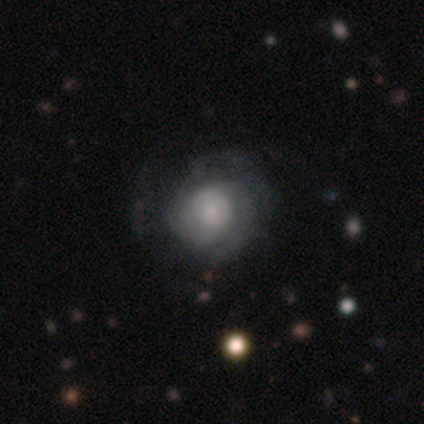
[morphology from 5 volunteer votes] Smooth or featured: smooth — 60% (featured or disk — 40%)
How rounded: round — 100%
Merging: none — 60% (minor disturbance — 20%)